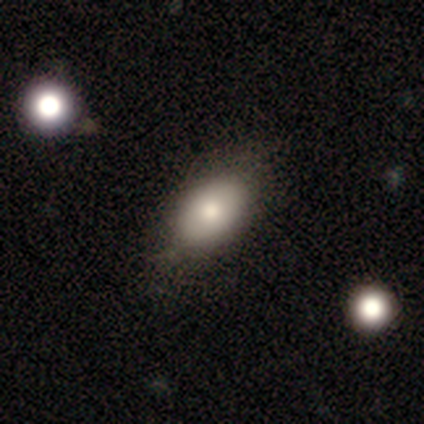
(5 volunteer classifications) Smooth or featured: smooth — 100%
How rounded: in between — 100%
Merging: none — 80% (minor disturbance — 20%)